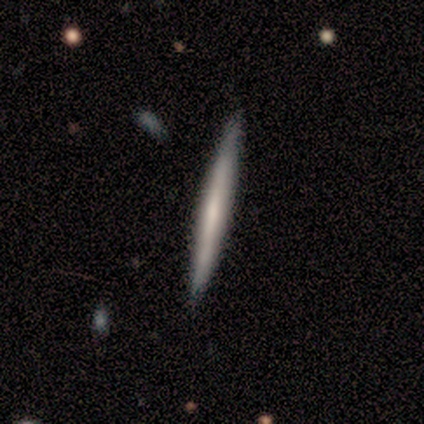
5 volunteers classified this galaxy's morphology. Volunteers were most divided on "smooth or featured": smooth: 80%, featured or disk: 20%, star or artifact: 0%. More confident: how rounded — cigar-shaped (100%); merging — none (100%).